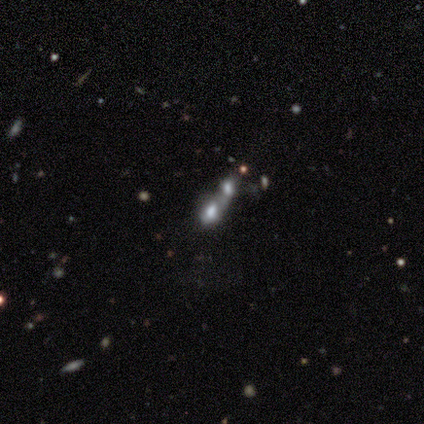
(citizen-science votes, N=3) Q: Smooth or featured?
A: smooth (100%)
Q: How rounded?
A: in between (67%); runner-up: round (33%)
Q: Merging?
A: merger (100%)